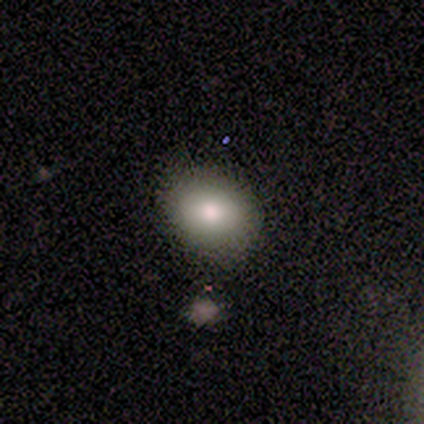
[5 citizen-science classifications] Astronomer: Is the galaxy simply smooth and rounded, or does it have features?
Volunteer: smooth — 100%.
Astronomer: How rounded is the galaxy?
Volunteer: in between — 80%.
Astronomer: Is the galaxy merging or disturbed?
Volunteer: none — 100%.